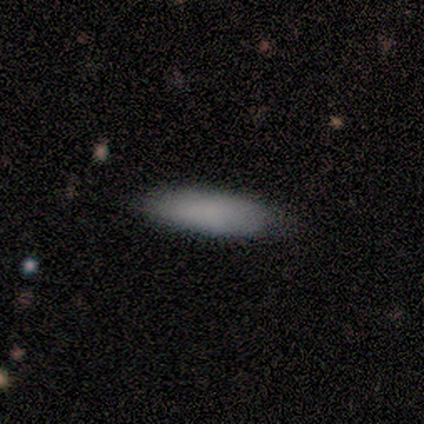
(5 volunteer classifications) Smooth or featured?
  - smooth: 80% *
  - star or artifact: 20%
  - featured or disk: 0%
How rounded?
  - in between: 50% * (tied)
  - cigar-shaped: 50% * (tied)
  - round: 0%
Merging?
  - none: 75% *
  - minor disturbance: 25%
  - major disturbance: 0%
  - merger: 0%